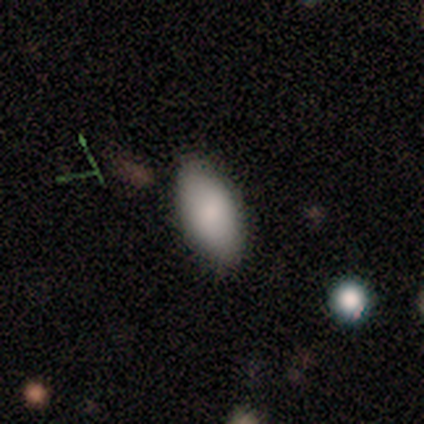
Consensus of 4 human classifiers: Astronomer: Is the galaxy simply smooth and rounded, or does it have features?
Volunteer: smooth — 75%.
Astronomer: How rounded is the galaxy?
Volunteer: in between — 100%.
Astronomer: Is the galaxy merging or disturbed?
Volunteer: none — 67%.